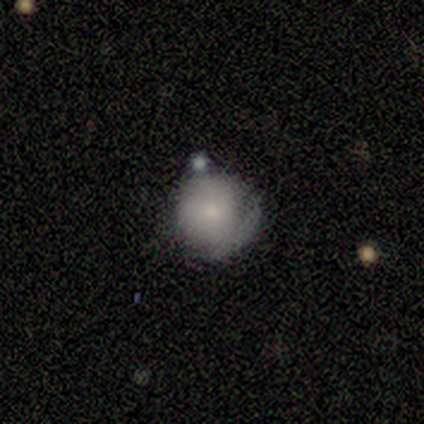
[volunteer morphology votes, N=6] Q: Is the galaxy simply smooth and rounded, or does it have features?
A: smooth — 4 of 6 (67%).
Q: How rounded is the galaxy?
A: round — 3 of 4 (75%).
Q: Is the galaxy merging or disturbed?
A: minor disturbance — 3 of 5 (60%).